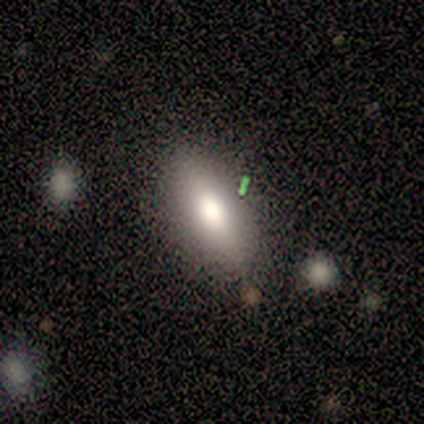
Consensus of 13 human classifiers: Q: Smooth or featured?
A: smooth (62%); runner-up: featured or disk (38%)
Q: How rounded?
A: in between (100%)
Q: Merging?
A: none (92%); runner-up: minor disturbance (8%)